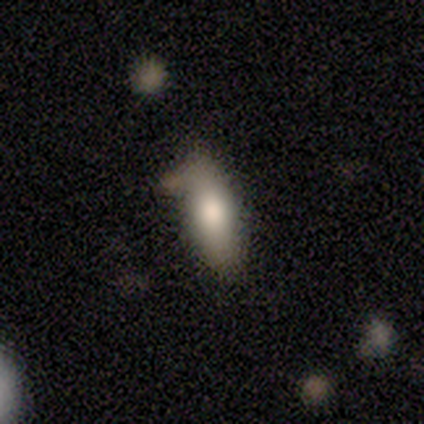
Smooth or featured? smooth (71%)
How rounded? in between (60%)
Merging? none (57%)